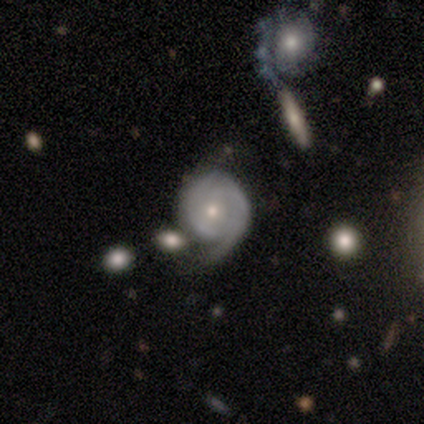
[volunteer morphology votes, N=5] Volunteers were most divided on "bar": no: 60%, strong: 20%, weak: 20%. More confident: smooth or featured — featured or disk (100%); edge-on disk — no (100%); spiral arms — yes (100%); spiral arm count — 2 (100%); bulge size — small (80%); merging — none (80%); spiral winding — tight (60%).